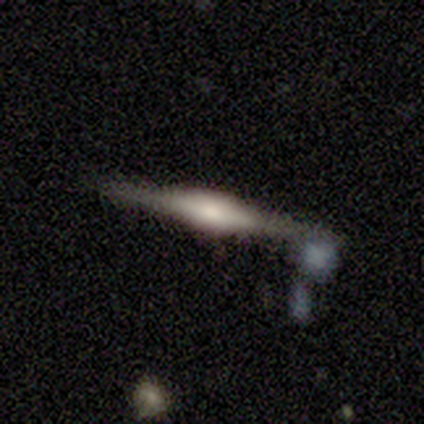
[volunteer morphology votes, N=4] Smooth or featured? featured or disk (75%)
Edge-on disk? yes (100%)
Edge-on bulge? rounded (67%)
Merging? none (67%)